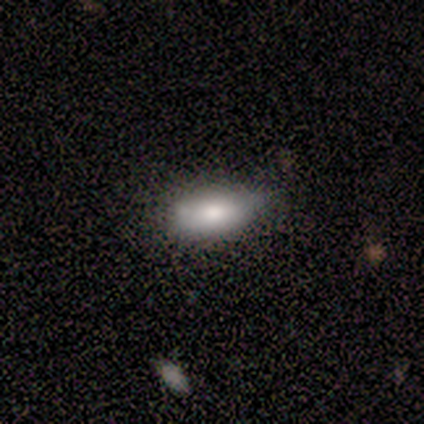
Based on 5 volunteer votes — A smooth galaxy with no disk features (80%) that is in between round and cigar-shaped (100%). Merging: none (80%).